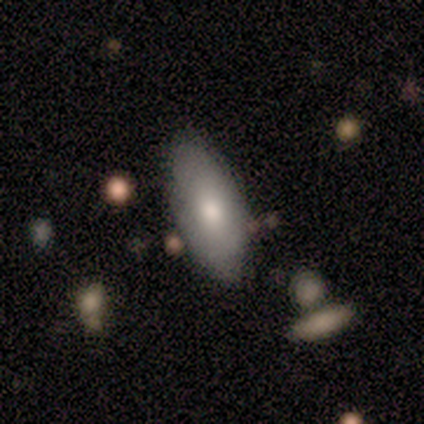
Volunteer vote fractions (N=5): Morphology: type=featured or disk (60%); edge-on=no (100%); bar=no (67%); spiral arms=no (67%); bulge=dominant (33%, tied with large and moderate); merging=none (60%).